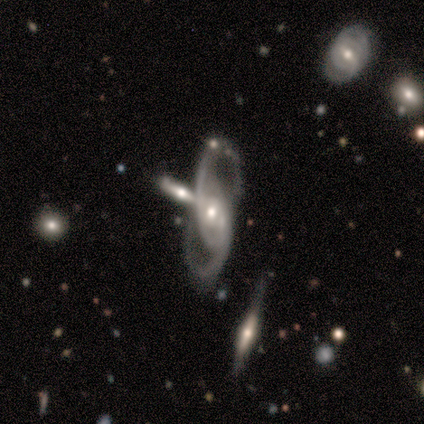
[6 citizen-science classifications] smooth-or-featured: featured or disk: 83% | star or artifact: 17% | smooth: 0%
  disk-edge-on: no: 100% | yes: 0%
    bar: weak: 40% (tied) | no: 40% (tied) | strong: 20%
    has-spiral-arms: yes: 80% | no: 20%
      spiral-winding: loose: 50% | tight: 25% | medium: 25%
      spiral-arm-count: 2: 100% | 1: 0% | 3: 0% | 4: 0% | more than 4: 0% | can't tell: 0%
    bulge-size: moderate: 60% | small: 40% | dominant: 0% | large: 0% | none: 0%
  merging: none: 100% | minor disturbance: 0% | major disturbance: 0% | merger: 0%